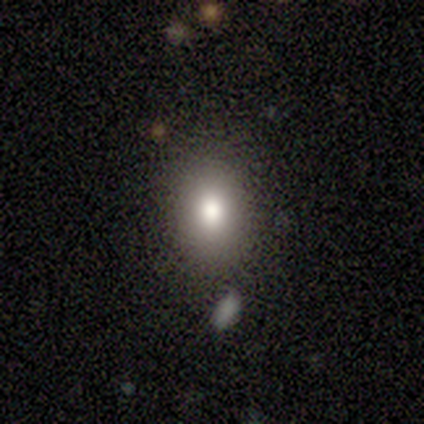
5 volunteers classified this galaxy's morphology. A smooth galaxy with no disk features (100%) that is in between round and cigar-shaped (60%). Merging: none (100%).